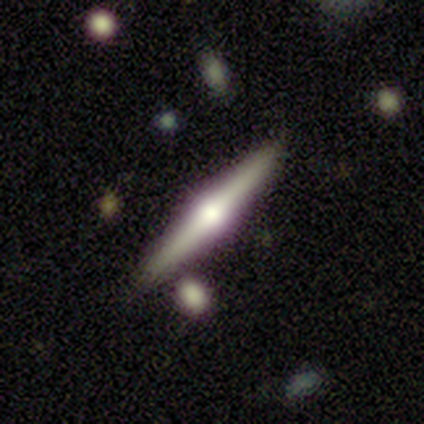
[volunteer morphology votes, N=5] Smooth or featured: featured or disk — 80% (smooth — 20%)
Edge-on disk: yes — 100%
Edge-on bulge: rounded — 100%
Merging: none — 80% (minor disturbance — 20%)